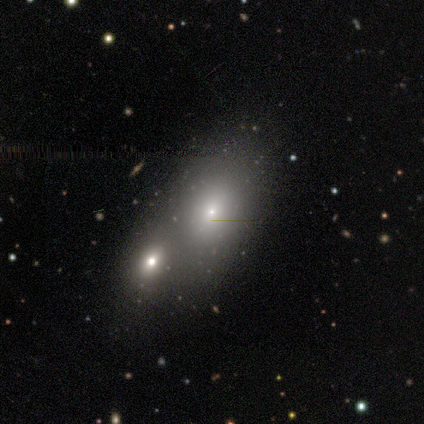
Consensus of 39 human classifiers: Q: Smooth or featured?
A: smooth (74%); runner-up: featured or disk (18%)
Q: How rounded?
A: in between (72%); runner-up: round (21%)
Q: Merging?
A: merger (64%); runner-up: none (33%)